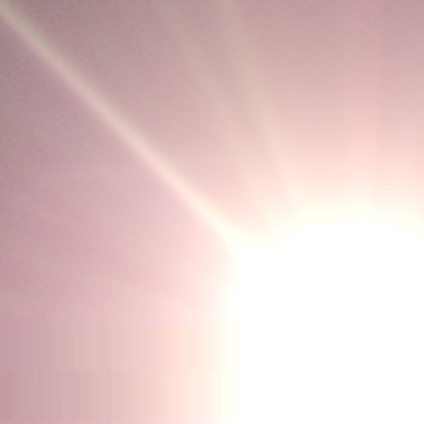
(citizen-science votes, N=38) Consensus on every question: smooth or featured — star or artifact (100%).